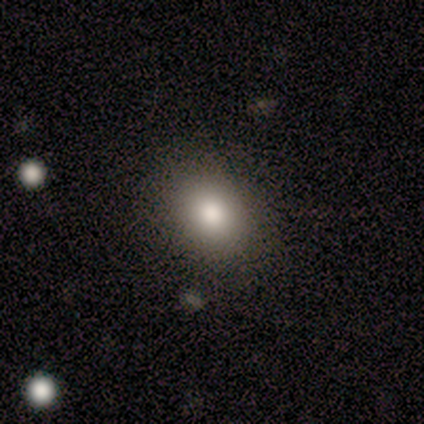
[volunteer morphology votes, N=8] Overall: smooth (75%). How rounded: round (67%; in between 33%). Merging: none (100%).